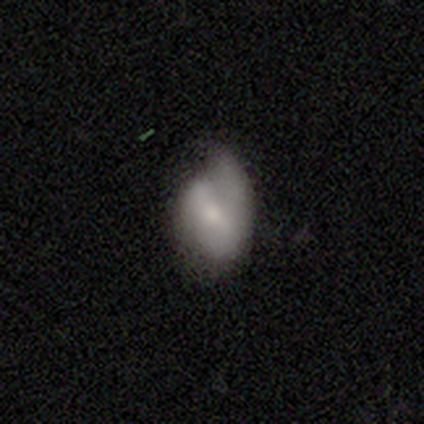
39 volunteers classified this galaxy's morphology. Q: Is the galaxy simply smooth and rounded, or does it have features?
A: smooth — 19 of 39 (49%).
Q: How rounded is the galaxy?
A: in between — 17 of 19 (89%).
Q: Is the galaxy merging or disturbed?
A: minor disturbance — 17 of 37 (46%).